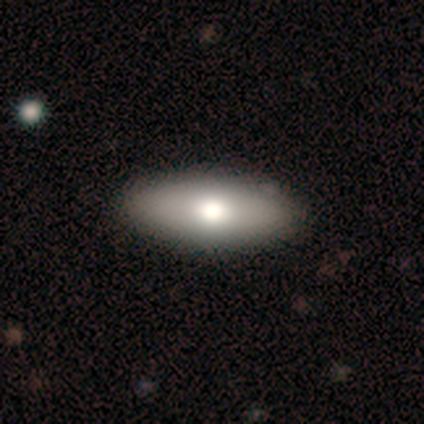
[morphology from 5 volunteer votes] type=smooth (40%, tied with star or artifact); roundness=in between (100%); merging=none (100%).